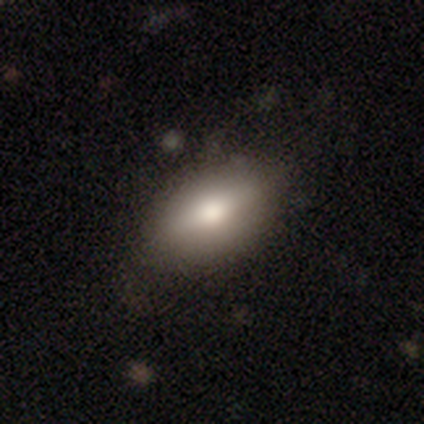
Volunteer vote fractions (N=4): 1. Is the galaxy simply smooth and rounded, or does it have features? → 100% smooth, 0% featured or disk, 0% star or artifact.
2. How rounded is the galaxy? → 100% in between, 0% round, 0% cigar-shaped.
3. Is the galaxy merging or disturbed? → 100% none, 0% minor disturbance, 0% major disturbance, 0% merger.